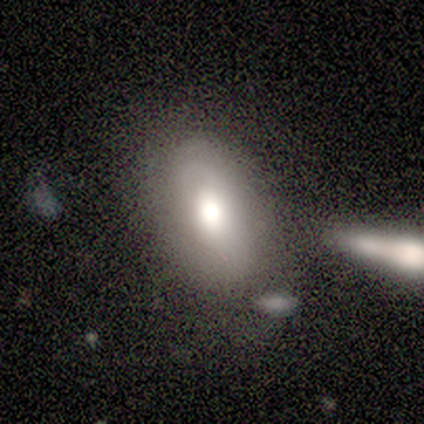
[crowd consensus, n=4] smooth_or_featured: smooth (p=0.75) [alt: featured or disk p=0.25]
how_rounded: in between (p=1.00)
merging: none (p=1.00)